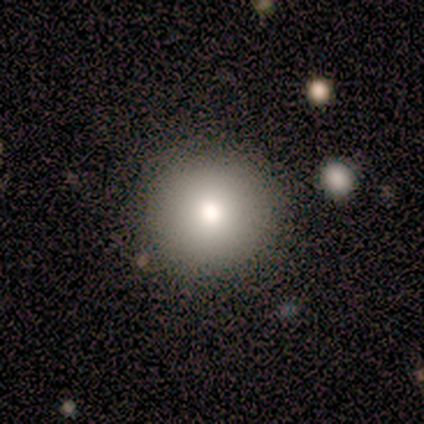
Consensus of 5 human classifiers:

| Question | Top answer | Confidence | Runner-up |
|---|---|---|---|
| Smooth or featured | smooth | 80% | featured or disk (20%) |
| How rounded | round | 100% | — |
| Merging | none | 80% | minor disturbance (20%) |